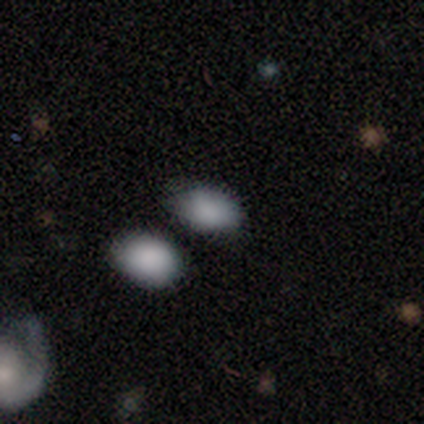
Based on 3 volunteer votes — This appears to be a smooth galaxy with no disk features (100%) that is in between round and cigar-shaped (100%). Merging: none (67%).